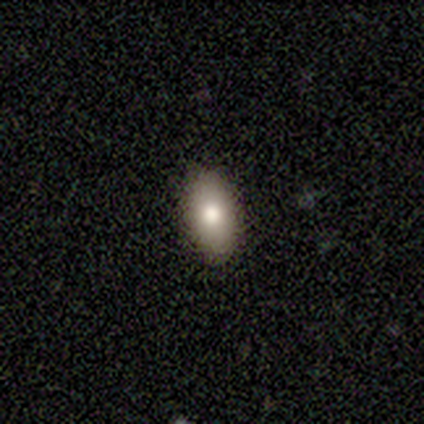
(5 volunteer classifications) Smooth or featured? smooth (80%)
How rounded? in between (100%)
Merging? none (80%)